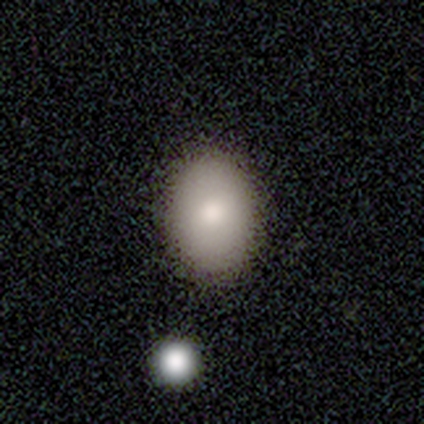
Smooth or featured? smooth (100%)
How rounded? in between (100%)
Merging? none (100%)